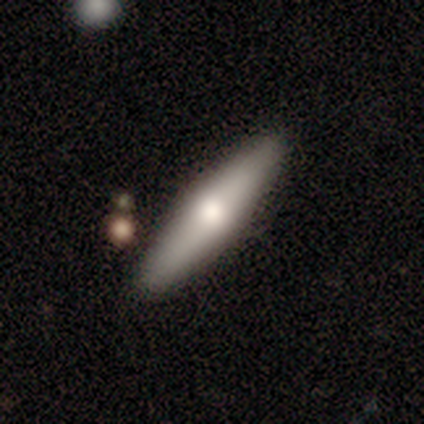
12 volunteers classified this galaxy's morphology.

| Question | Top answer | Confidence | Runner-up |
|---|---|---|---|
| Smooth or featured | smooth | 67% | featured or disk (33%) |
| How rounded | cigar-shaped | 75% | in between (25%) |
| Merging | none | 92% | minor disturbance (8%) |